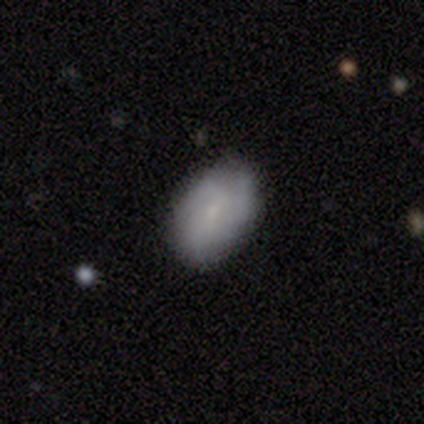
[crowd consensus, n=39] Smooth or featured? 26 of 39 (67%) said smooth. How rounded? 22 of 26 (85%) said in between. Merging? 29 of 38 (76%) said none.